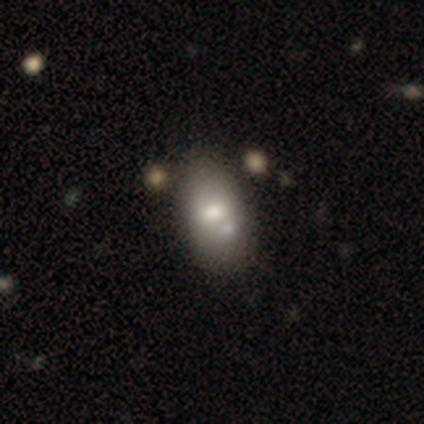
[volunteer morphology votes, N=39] Smooth or featured? 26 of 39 (67%) said smooth. How rounded? 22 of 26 (85%) said in between. Merging? 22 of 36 (61%) said none.